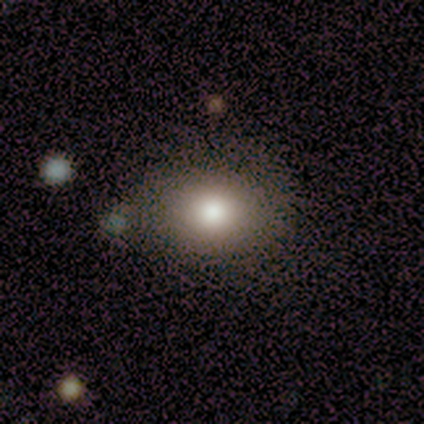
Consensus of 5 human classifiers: Smooth or featured?
  - smooth: 100% *
  - featured or disk: 0%
  - star or artifact: 0%
How rounded?
  - round: 60% *
  - in between: 40%
  - cigar-shaped: 0%
Merging?
  - minor disturbance: 60% *
  - none: 40%
  - major disturbance: 0%
  - merger: 0%